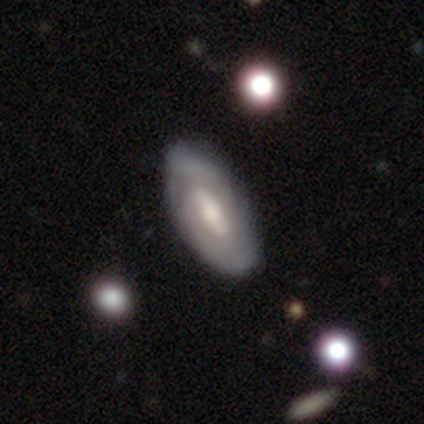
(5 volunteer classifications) smooth_or_featured: featured or disk (p=0.80) [alt: smooth p=0.20]
disk_edge_on: no (p=1.00)
bar: strong (p=0.75) [alt: weak p=0.25]
has_spiral_arms: yes (p=0.75) [alt: no p=0.25]
spiral_winding: tight (p=1.00)
spiral_arm_count: 2 (p=1.00)
bulge_size: moderate (p=0.75) [alt: small p=0.25]
merging: none (p=0.40) [tied with: minor disturbance p=0.40]